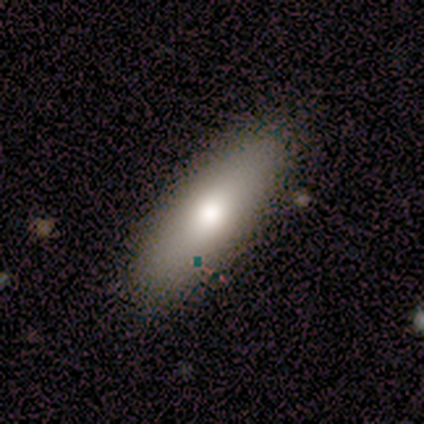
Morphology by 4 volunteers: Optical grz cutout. It shows a smooth galaxy with no disk features (100%) that is in between round and cigar-shaped (75%). Merging: none (75%).